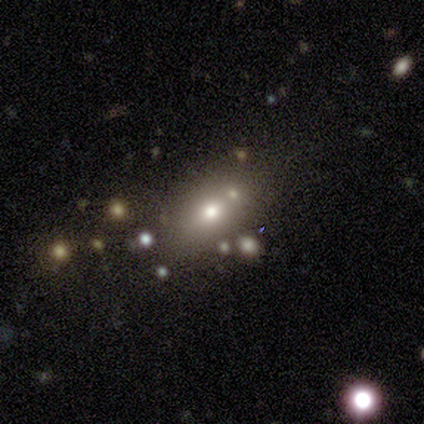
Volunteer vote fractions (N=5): Overall: star or artifact (60%; smooth 20%).